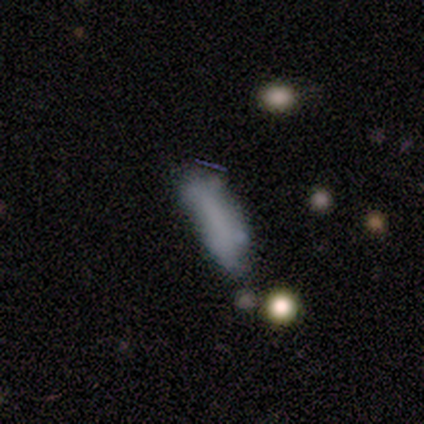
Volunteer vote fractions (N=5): Overall: smooth (40%, tied with featured or disk). How rounded: in between (100%). Merging: none (50%; major disturbance 25%).